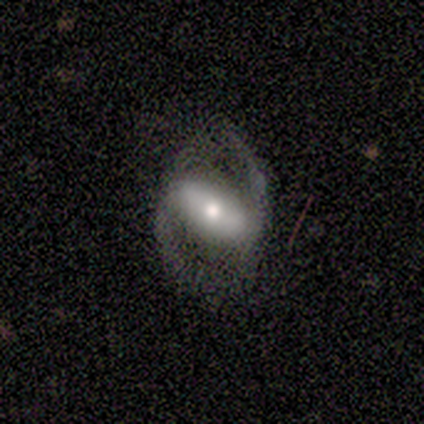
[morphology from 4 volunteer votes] This is possibly a smooth galaxy (50%, tied with featured or disk). How rounded: possibly in between (50%, tied with cigar-shaped). Merging: clearly none (100%).